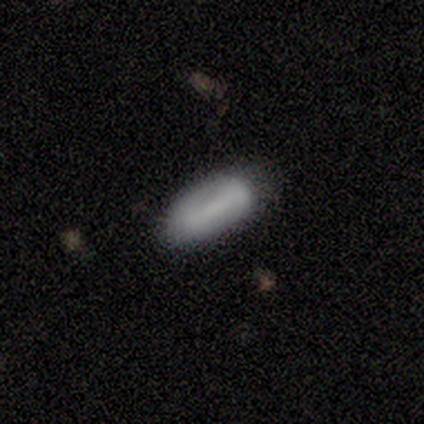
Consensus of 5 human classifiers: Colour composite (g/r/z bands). It shows a smooth galaxy with no disk features (60%) that is in between round and cigar-shaped (100%). Merging: none (100%).